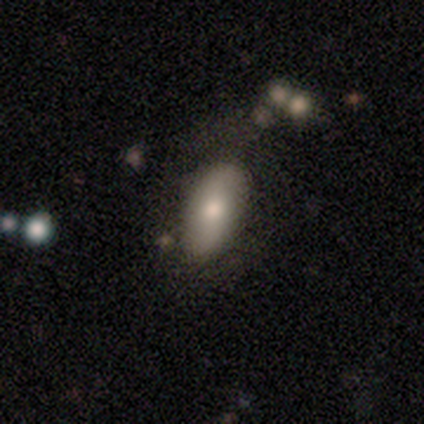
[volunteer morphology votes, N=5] A smooth galaxy with no disk features (100%) that is in between round and cigar-shaped (80%). Merging: none (80%).